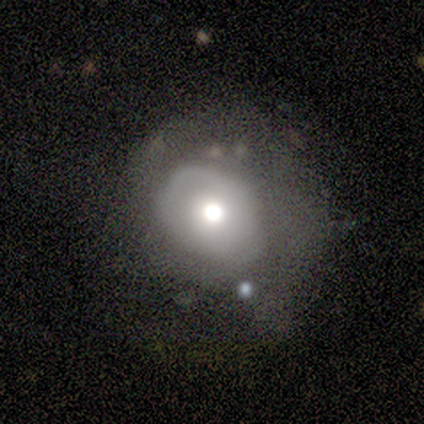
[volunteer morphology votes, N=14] type=smooth (43%, tied with featured or disk); roundness=round (67%); merging=none (42%, tied with major disturbance).